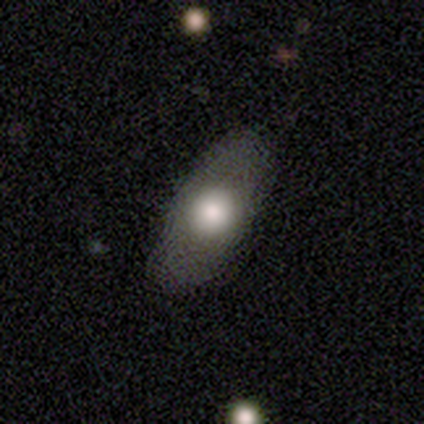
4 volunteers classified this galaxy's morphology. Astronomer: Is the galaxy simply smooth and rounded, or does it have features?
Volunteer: smooth — 75%.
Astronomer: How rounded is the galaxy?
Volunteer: in between — 100%.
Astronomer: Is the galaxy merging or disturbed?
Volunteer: none — 100%.